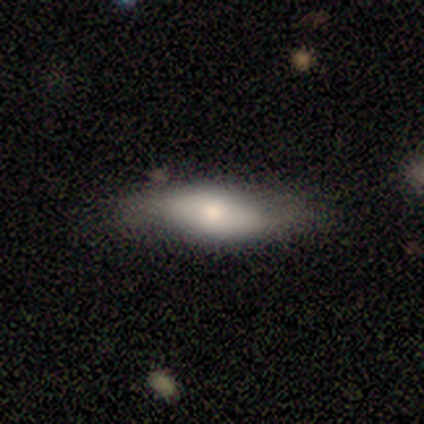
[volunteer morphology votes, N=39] Volunteers were most divided on "smooth or featured": smooth: 59%, featured or disk: 36%, star or artifact: 5%. More confident: merging — none (76%); how rounded — in between (61%).